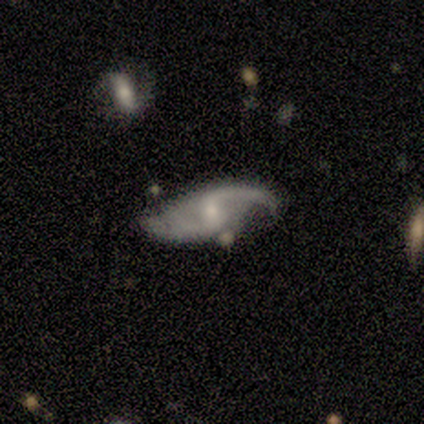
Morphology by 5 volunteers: smooth-or-featured: featured or disk: 100% | smooth: 0% | star or artifact: 0%
  disk-edge-on: no: 100% | yes: 0%
    bar: no: 60% | strong: 20% | weak: 20%
    has-spiral-arms: yes: 100% | no: 0%
      spiral-winding: medium: 60% | loose: 40% | tight: 0%
      spiral-arm-count: 2: 80% | can't tell: 20% | 1: 0% | 3: 0% | 4: 0% | more than 4: 0%
    bulge-size: small: 80% | moderate: 20% | dominant: 0% | large: 0% | none: 0%
  merging: none: 80% | major disturbance: 20% | minor disturbance: 0% | merger: 0%